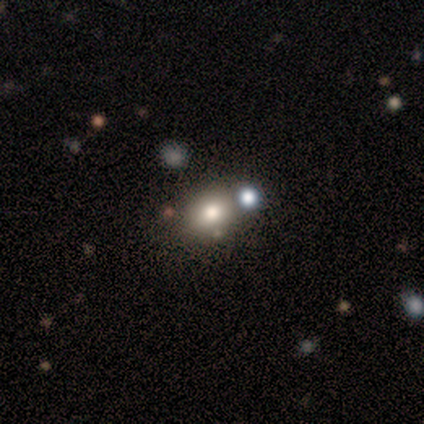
Morphology: type=smooth (75%); roundness=round (67%); merging=none (75%).